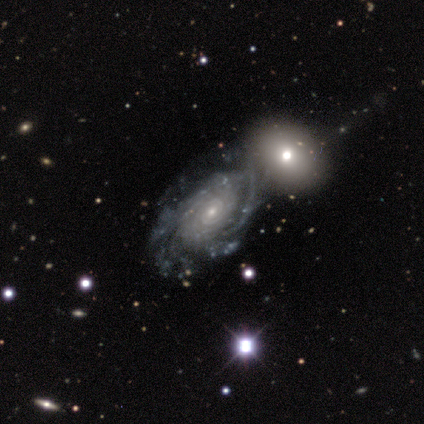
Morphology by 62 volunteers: This appears to be a featured or disk galaxy (94%) with no bar (80%), tight (74%) spiral arms (95%) and a small central bulge (68%). Merging: none (52%).